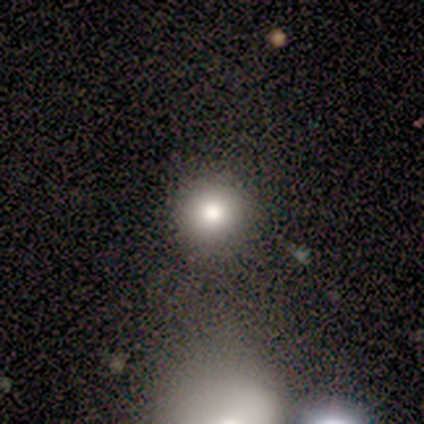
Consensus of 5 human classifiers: This is clearly a smooth galaxy (100%). How rounded: clearly round (100%). Merging: clearly none (100%).